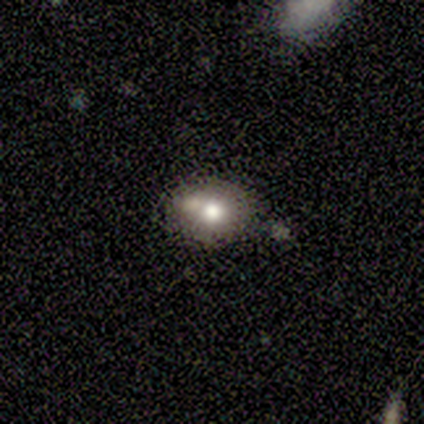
Q: Smooth or featured?
A: smooth (100%)
Q: How rounded?
A: round (60%); runner-up: in between (40%)
Q: Merging?
A: none (80%); runner-up: minor disturbance (20%)